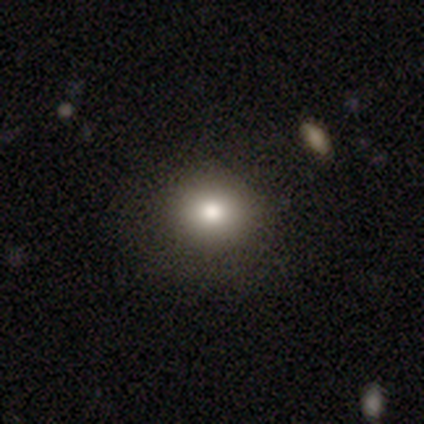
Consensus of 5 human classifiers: Smooth or featured? 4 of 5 (80%) said smooth. How rounded? 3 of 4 (75%) said round. Merging? 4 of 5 (80%) said none.